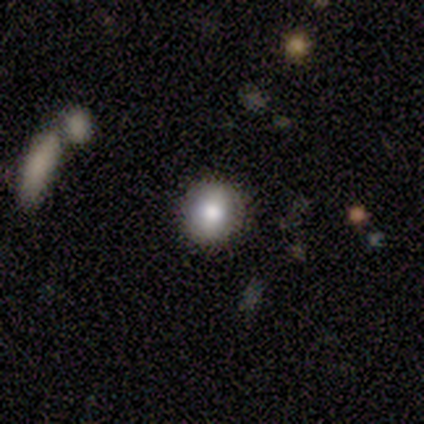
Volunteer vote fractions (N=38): Overall: smooth (76%). How rounded: round (79%). Merging: none (94%).